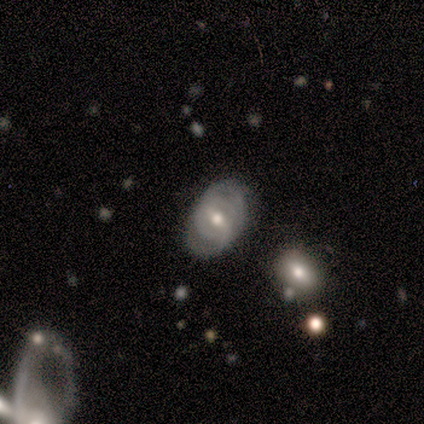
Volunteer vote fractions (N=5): Morphology: type=smooth (60%); roundness=in between (67%); merging=none (60%).